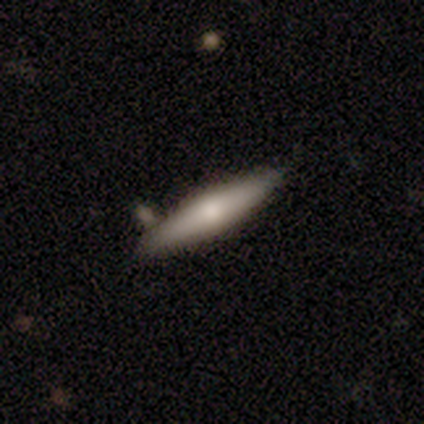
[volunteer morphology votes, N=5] type=featured or disk (60%); edge-on=yes (67%); edge-on bulge=rounded (100%); merging=none (100%).